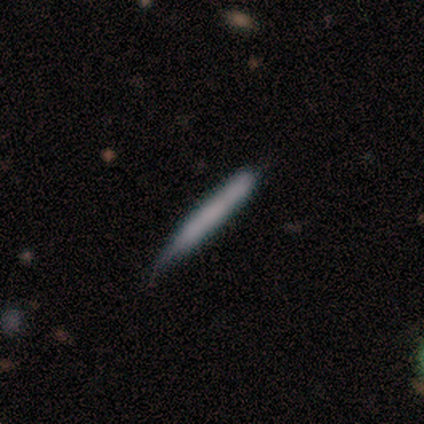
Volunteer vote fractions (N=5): smooth-or-featured: featured or disk: 60% | smooth: 40% | star or artifact: 0%
  disk-edge-on: yes: 100% | no: 0%
    edge-on-bulge: boxy: 33% (tied) | none: 33% (tied) | rounded: 33% (tied)
  merging: none: 40% (tied) | minor disturbance: 40% (tied) | major disturbance: 20% | merger: 0%